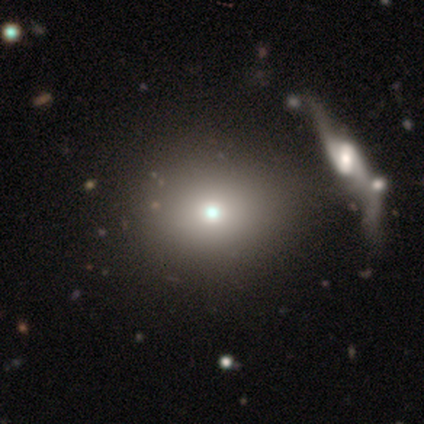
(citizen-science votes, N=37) Smooth or featured?
  - smooth: 62% *
  - featured or disk: 19%
  - star or artifact: 19%
How rounded?
  - round: 74% *
  - in between: 26%
  - cigar-shaped: 0%
Merging?
  - none: 80% *
  - minor disturbance: 10%
  - major disturbance: 7%
  - merger: 3%